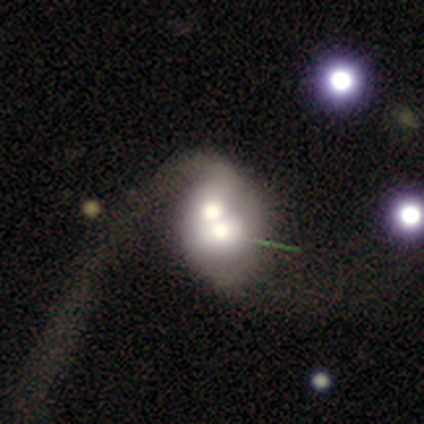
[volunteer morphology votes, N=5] A featured or disk galaxy (60%) with no bar (100%), no spiral arms (67%) and a moderate central bulge (67%).

Vote fractions:
- Smooth or featured? featured or disk: 60% / smooth: 40% / star or artifact: 0%
- Edge-on disk? no: 100% / yes: 0%
- Bar? no: 100% / strong: 0% / weak: 0%
- Spiral arms? no: 67% / yes: 33%
- Bulge size? moderate: 67% / large: 33% / dominant: 0% / small: 0% / none: 0%
- Merging? merger: 60% / minor disturbance: 20% / major disturbance: 20% / none: 0%